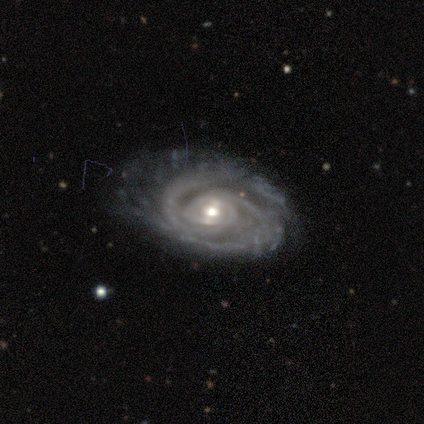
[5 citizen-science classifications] Smooth or featured: featured or disk — 100%
Edge-on disk: no — 100%
Bar: weak — 40% (tied with no — 40%)
Spiral arms: yes — 100%
Spiral winding: tight — 80% (medium — 20%)
Spiral arm count: 2 — 60% (3 — 20%)
Bulge size: moderate — 60% (small — 20%)
Merging: none — 100%